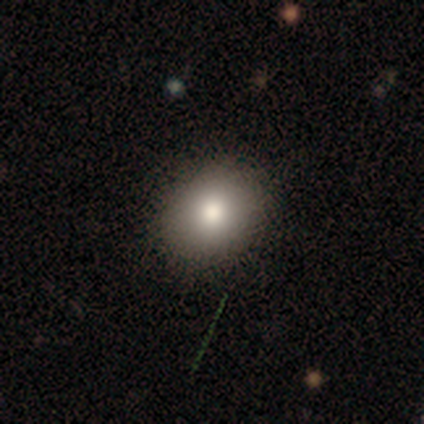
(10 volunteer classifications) A smooth galaxy with no disk features (80%) that is round (62%). Merging: none (88%).